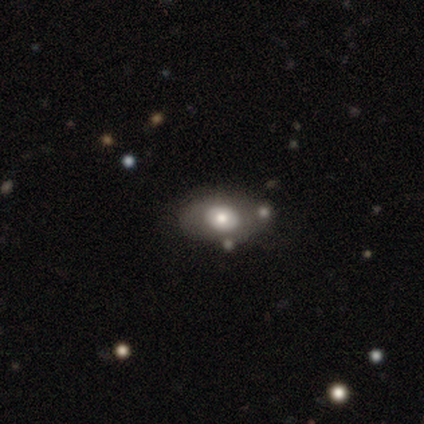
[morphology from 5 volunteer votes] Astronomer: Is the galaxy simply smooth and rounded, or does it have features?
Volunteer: smooth — 80%.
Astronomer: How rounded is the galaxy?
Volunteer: in between — 75%.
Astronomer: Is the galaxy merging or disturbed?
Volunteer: none — 100%.